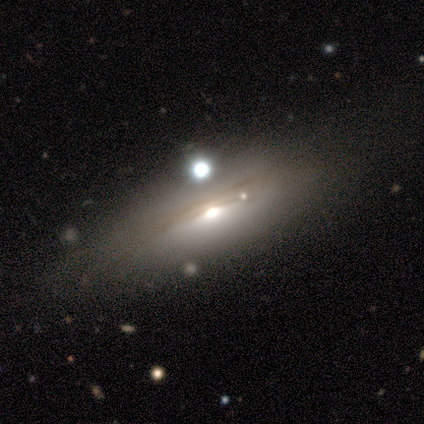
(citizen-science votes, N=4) smooth_or_featured: smooth (p=0.75) [alt: featured or disk p=0.25]
how_rounded: in between (p=1.00)
merging: none (p=0.75) [alt: minor disturbance p=0.25]